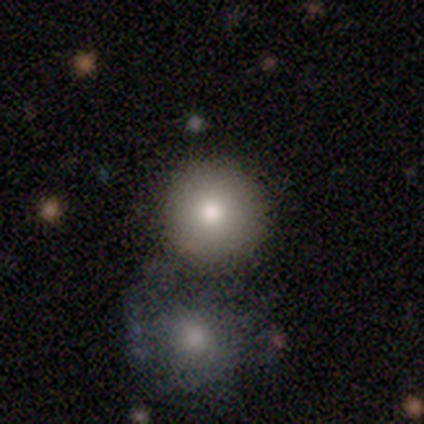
This appears to be a smooth galaxy with no disk features (73%) that is round (100%). Merging: none (67%).